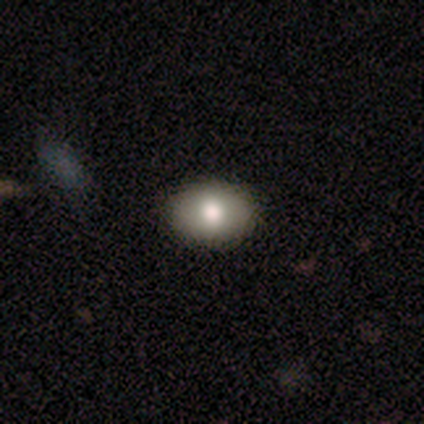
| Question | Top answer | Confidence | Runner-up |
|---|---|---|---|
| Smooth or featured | smooth | 60% | star or artifact (40%) |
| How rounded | round | 67% | in between (33%) |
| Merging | none | 100% | — |